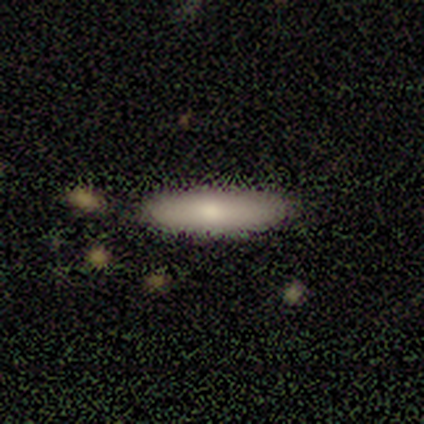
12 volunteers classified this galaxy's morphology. Smooth or featured: smooth — 83% (featured or disk — 8%)
How rounded: cigar-shaped — 90% (in between — 10%)
Merging: none — 91% (minor disturbance — 9%)